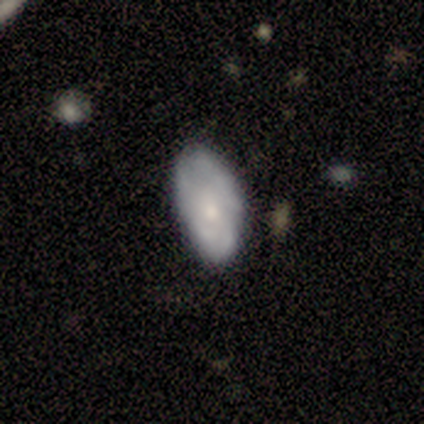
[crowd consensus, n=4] Smooth or featured: featured or disk — 75% (smooth — 25%)
Edge-on disk: no — 100%
Bar: no — 67% (weak — 33%)
Spiral arms: yes — 67% (no — 33%)
Spiral winding: tight — 50% (tied with loose — 50%)
Spiral arm count: can't tell — 100%
Bulge size: small — 67% (moderate — 33%)
Merging: none — 50% (tied with minor disturbance — 50%)